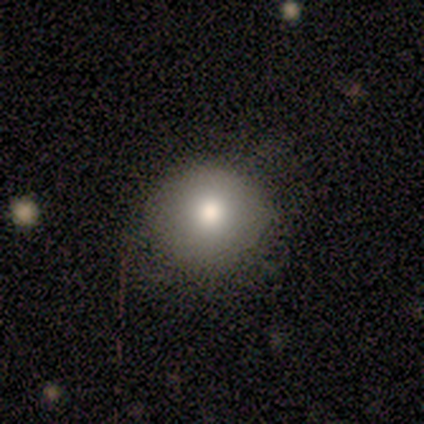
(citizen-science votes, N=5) smooth_or_featured: smooth (p=0.60) [alt: featured or disk p=0.20]
how_rounded: round (p=1.00)
merging: none (p=1.00)